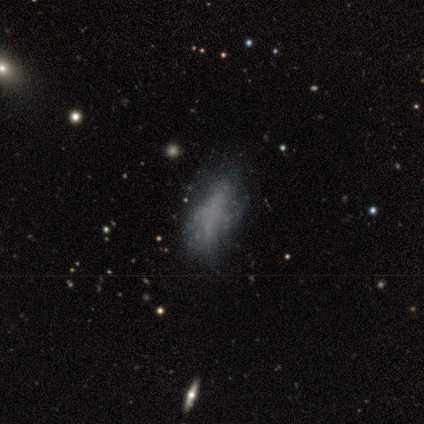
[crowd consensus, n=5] Overall: smooth (40%, tied with featured or disk). How rounded: in between (100%). Merging: none (50%; minor disturbance 25%).